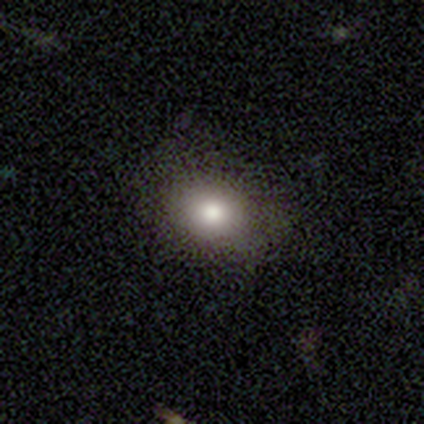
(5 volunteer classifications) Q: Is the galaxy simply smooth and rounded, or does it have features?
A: smooth — 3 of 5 (60%).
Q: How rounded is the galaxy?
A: in between — 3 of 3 (100%).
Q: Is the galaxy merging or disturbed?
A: none — 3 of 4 (75%).